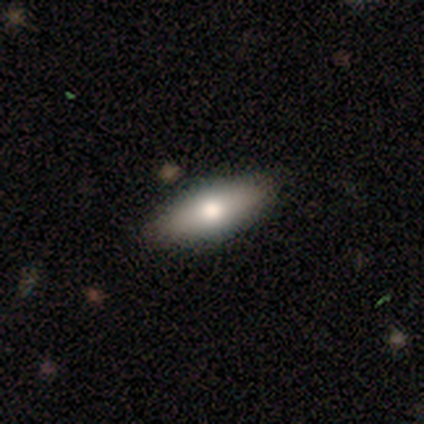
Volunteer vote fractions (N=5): Smooth or featured: smooth — 80% (star or artifact — 20%)
How rounded: in between — 50% (tied with cigar-shaped — 50%)
Merging: none — 100%